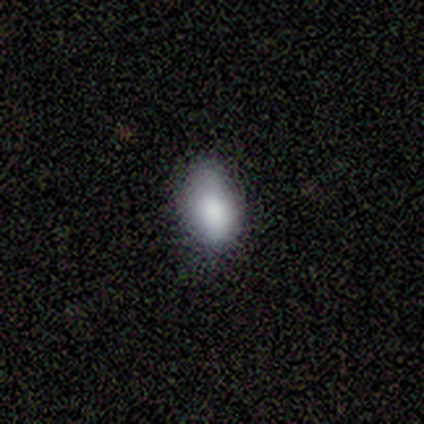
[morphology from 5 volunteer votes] Smooth or featured? smooth (100%)
How rounded? in between (100%)
Merging? none (60%)